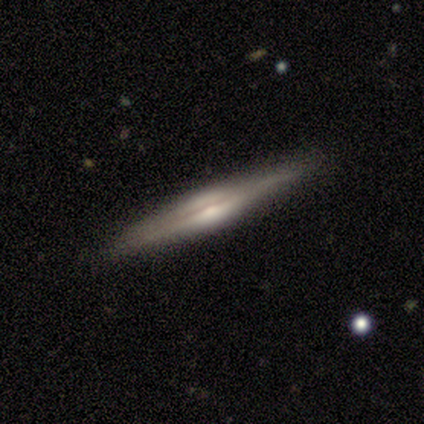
smooth_or_featured: featured or disk (p=0.60) [alt: smooth p=0.40]
disk_edge_on: yes (p=1.00)
edge_on_bulge: rounded (p=1.00)
merging: none (p=0.80) [alt: minor disturbance p=0.20]